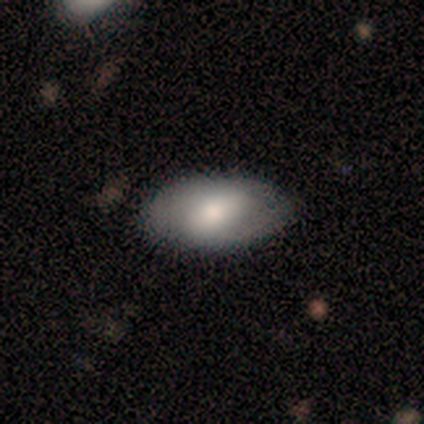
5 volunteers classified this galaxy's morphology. Smooth or featured? 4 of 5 (80%) said smooth. How rounded? 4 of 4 (100%) said in between. Merging? 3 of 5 (60%) said none.